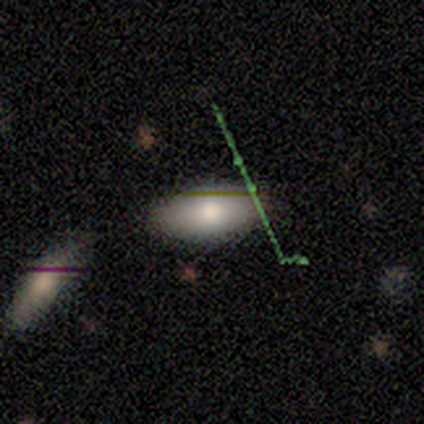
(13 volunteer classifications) smooth-or-featured: smooth: 69% | featured or disk: 15% | star or artifact: 15%
  how-rounded: in between: 100% | round: 0% | cigar-shaped: 0%
  merging: none: 82% | major disturbance: 9% | merger: 9% | minor disturbance: 0%